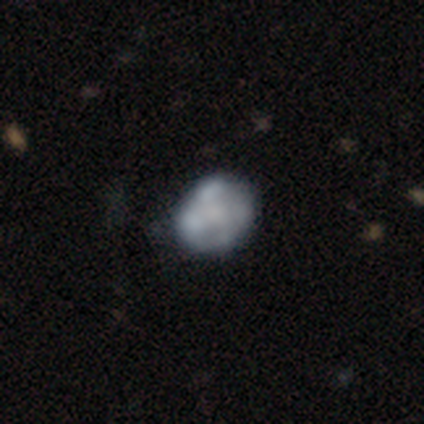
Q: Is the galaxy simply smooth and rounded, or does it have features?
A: featured or disk — 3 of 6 (50%).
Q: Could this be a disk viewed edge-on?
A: no — 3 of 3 (100%).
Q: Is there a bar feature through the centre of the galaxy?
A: no — 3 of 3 (100%).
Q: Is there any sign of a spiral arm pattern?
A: no — 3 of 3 (100%).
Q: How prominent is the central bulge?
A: dominant — 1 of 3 (33%, tied with moderate and none).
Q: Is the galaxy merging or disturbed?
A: none — 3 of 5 (60%).